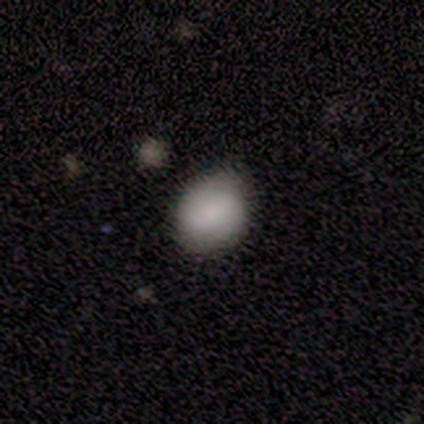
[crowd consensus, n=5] Morphology: type=smooth (100%); roundness=round (80%); merging=none (80%).